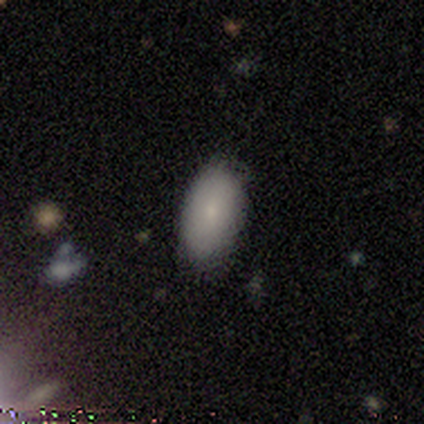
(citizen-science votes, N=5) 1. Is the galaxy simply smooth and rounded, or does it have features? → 80% smooth, 20% star or artifact, 0% featured or disk.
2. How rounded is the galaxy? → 75% in between, 25% round, 0% cigar-shaped.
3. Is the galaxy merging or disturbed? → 75% none, 25% minor disturbance, 0% major disturbance, 0% merger.